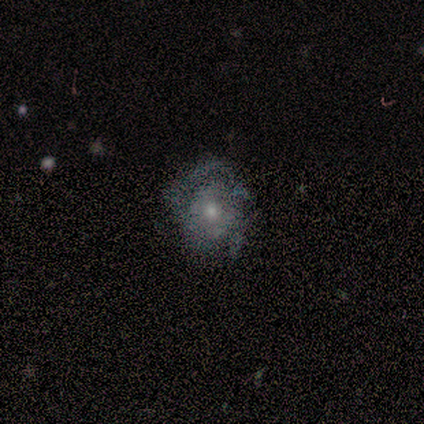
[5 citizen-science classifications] Smooth or featured: featured or disk — 60% (smooth — 40%)
Edge-on disk: no — 100%
Bar: no — 100%
Spiral arms: yes — 67% (no — 33%)
Spiral winding: medium — 100%
Spiral arm count: 3 — 50% (tied with can't tell — 50%)
Bulge size: moderate — 33% (tied with small — 33%; none — 33%)
Merging: none — 80% (minor disturbance — 20%)